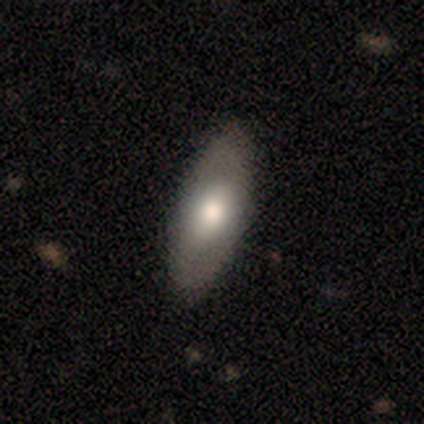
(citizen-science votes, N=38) A smooth galaxy with no disk features (55%) that is in between round and cigar-shaped (86%). Merging: none (87%).